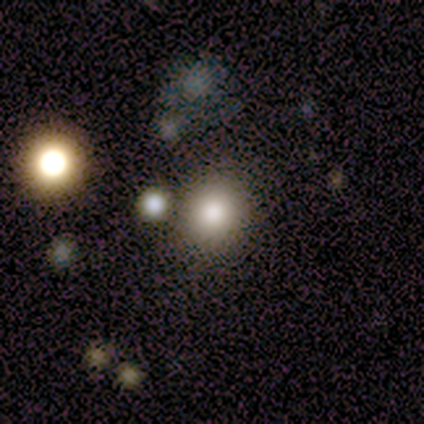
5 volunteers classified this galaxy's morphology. Smooth or featured? smooth (100%)
How rounded? round (80%)
Merging? none (80%)